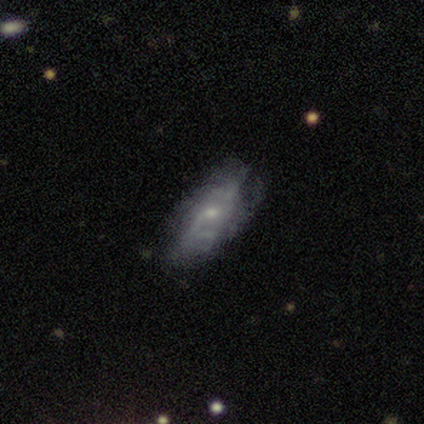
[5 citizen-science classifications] This appears to be a featured or disk galaxy (100%) with no bar (100%), 1 (50%, tied with can't tell) medium (100%) spiral arms (50%, tied with no) and a small central bulge (100%). Merging: none (40%, tied with minor disturbance).